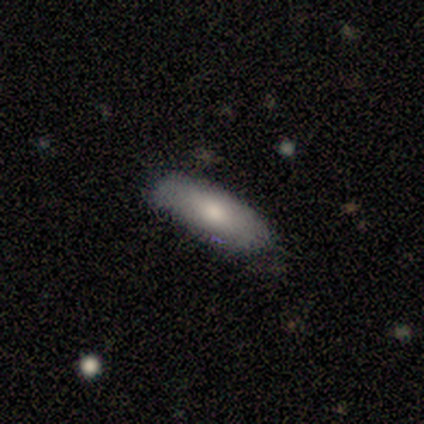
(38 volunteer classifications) Smooth or featured? 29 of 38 (76%) said smooth. How rounded? 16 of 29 (55%) said in between. Merging? 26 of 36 (72%) said none.